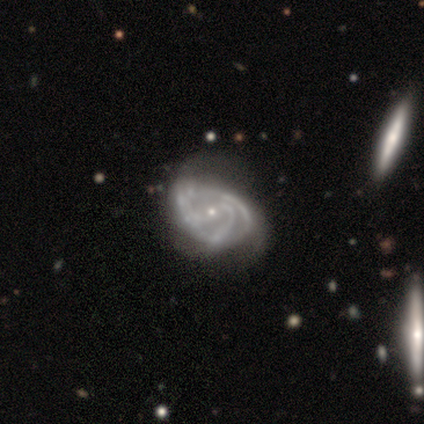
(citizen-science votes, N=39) smooth_or_featured: featured or disk (p=0.97) [alt: star or artifact p=0.03]
disk_edge_on: no (p=0.95) [alt: yes p=0.05]
bar: no (p=0.50) [alt: weak p=0.36]
has_spiral_arms: yes (p=1.00)
spiral_winding: medium (p=0.50) [alt: tight p=0.33]
spiral_arm_count: 3 (p=0.50) [alt: 2 p=0.31]
bulge_size: small (p=0.89) [alt: moderate p=0.08]
merging: none (p=0.26) [tied with: minor disturbance p=0.26]